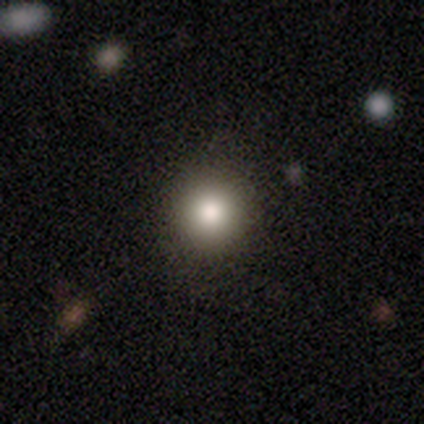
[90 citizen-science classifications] Smooth or featured? smooth (73%)
How rounded? round (89%)
Merging? none (91%)